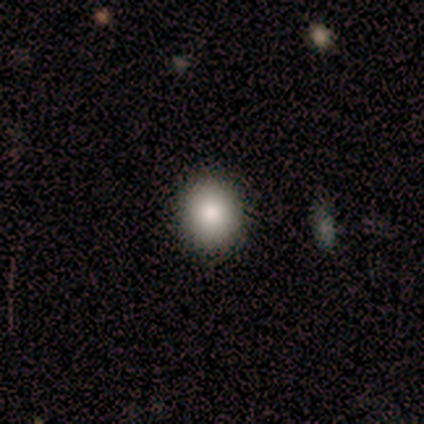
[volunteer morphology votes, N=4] Smooth or featured? 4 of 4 (100%) said smooth. How rounded? 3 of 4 (75%) said round. Merging? 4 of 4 (100%) said none.